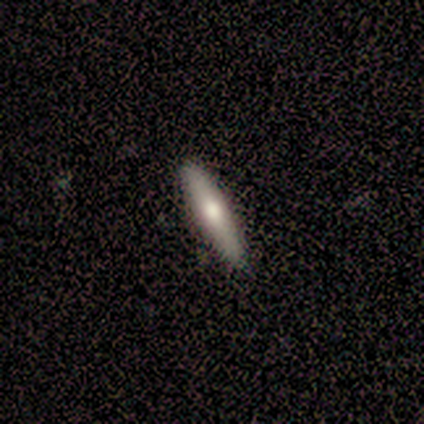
Q: Smooth or featured?
A: smooth (50%); tied with: featured or disk (50%)
Q: How rounded?
A: cigar-shaped (100%)
Q: Merging?
A: none (100%)